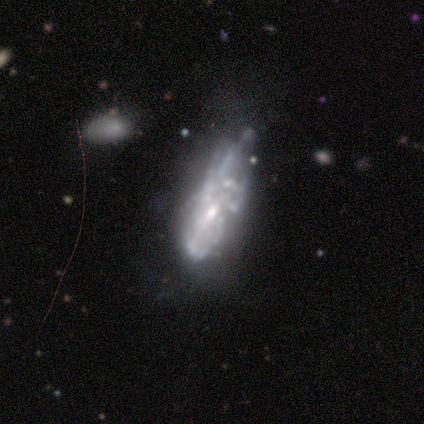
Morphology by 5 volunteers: smooth-or-featured: featured or disk: 100% | smooth: 0% | star or artifact: 0%
  disk-edge-on: no: 100% | yes: 0%
    bar: weak: 40% (tied) | no: 40% (tied) | strong: 20%
    has-spiral-arms: no: 60% | yes: 40%
    bulge-size: moderate: 80% | small: 20% | dominant: 0% | large: 0% | none: 0%
  merging: minor disturbance: 60% | major disturbance: 20% | merger: 20% | none: 0%